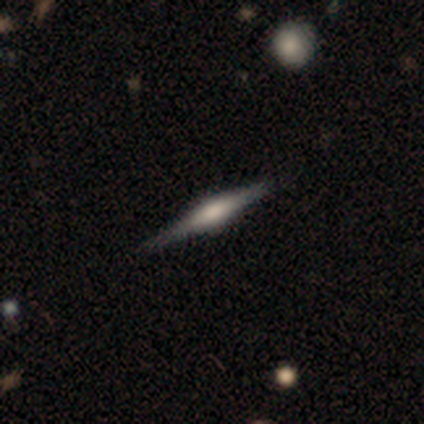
featured or disk 60%, smooth 20%, star or artifact 20%. Down the decision tree: edge-on disk — yes (100%); edge-on bulge — rounded (67%); merging — none (100%).